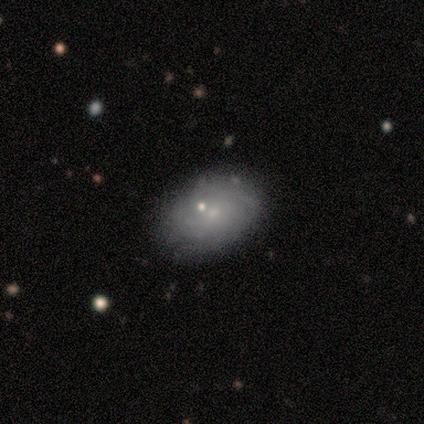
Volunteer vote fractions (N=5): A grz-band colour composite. It shows a featured or disk galaxy (60%) with no bar (100%), tight (50%, tied with medium) spiral arms (100%) and a small central bulge (100%). Merging: none (100%).